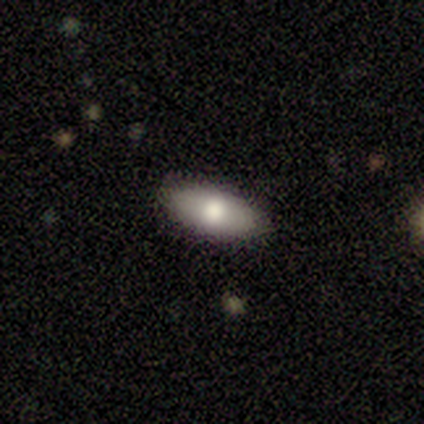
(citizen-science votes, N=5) smooth_or_featured: smooth (p=1.00)
how_rounded: in between (p=0.80) [alt: cigar-shaped p=0.20]
merging: none (p=0.80) [alt: minor disturbance p=0.20]